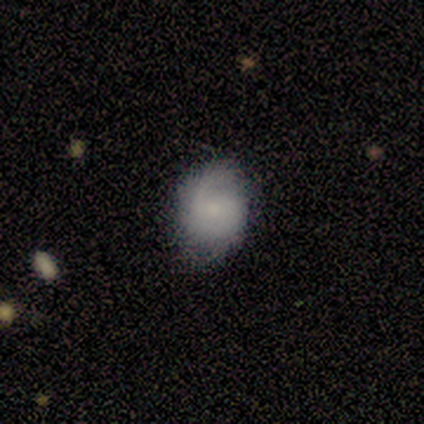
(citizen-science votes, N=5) A smooth galaxy with no disk features (60%) that is in between round and cigar-shaped (67%).

Vote fractions:
- Smooth or featured? smooth: 60% / featured or disk: 40% / star or artifact: 0%
- How rounded? in between: 67% / round: 33% / cigar-shaped: 0%
- Merging? none: 80% / minor disturbance: 20% / major disturbance: 0% / merger: 0%